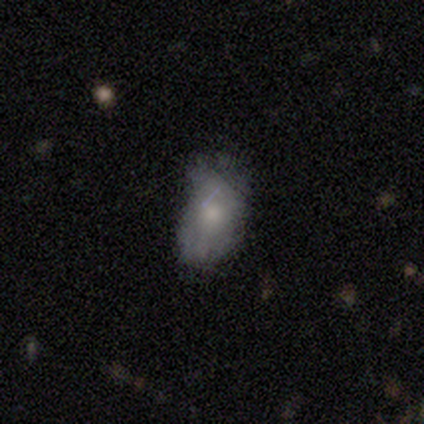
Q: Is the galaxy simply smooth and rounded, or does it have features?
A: smooth — 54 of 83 (65%).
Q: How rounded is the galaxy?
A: in between — 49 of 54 (91%).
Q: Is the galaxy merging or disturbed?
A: minor disturbance — 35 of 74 (47%).